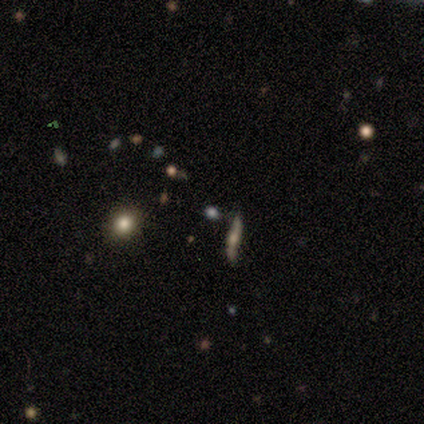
smooth-or-featured: featured or disk: 40% (tied) | star or artifact: 40% (tied) | smooth: 20%
  disk-edge-on: yes: 100% | no: 0%
    edge-on-bulge: rounded: 100% | boxy: 0% | none: 0%
  merging: none: 100% | minor disturbance: 0% | major disturbance: 0% | merger: 0%